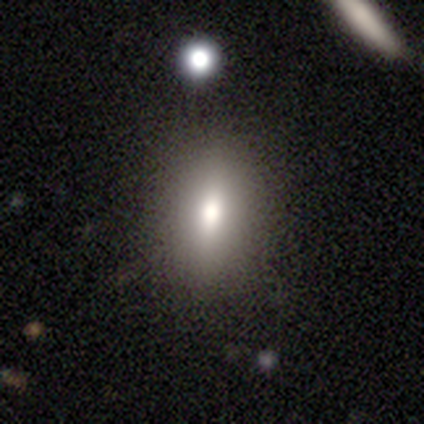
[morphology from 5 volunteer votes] type=smooth (60%); roundness=in between (67%); merging=none (100%).